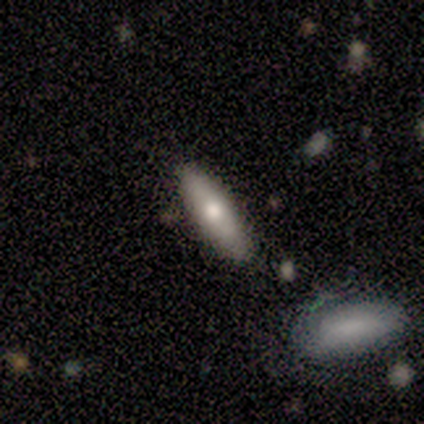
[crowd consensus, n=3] smooth-or-featured: featured or disk: 67% | smooth: 33% | star or artifact: 0%
  disk-edge-on: yes: 50% (tied) | no: 50% (tied)
    edge-on-bulge: rounded: 100% | boxy: 0% | none: 0%
  merging: minor disturbance: 67% | none: 33% | major disturbance: 0% | merger: 0%